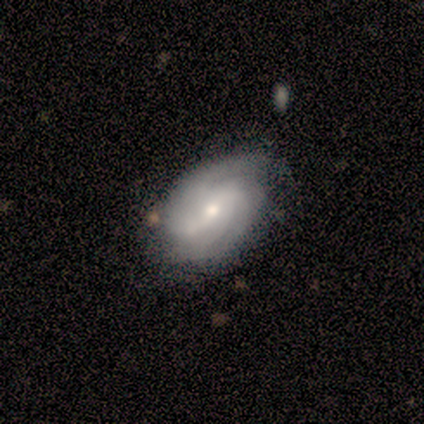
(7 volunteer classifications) This is clearly a featured or disk galaxy (100%). It is clearly not viewed edge-on (100%). Bar: marginally no (43%). Spiral arm pattern: clearly yes (100%). Spiral arm count: possibly 2 (57%). Spiral winding: likely medium (71%). Central bulge: possibly moderate (57%). Merging: likely none (71%).